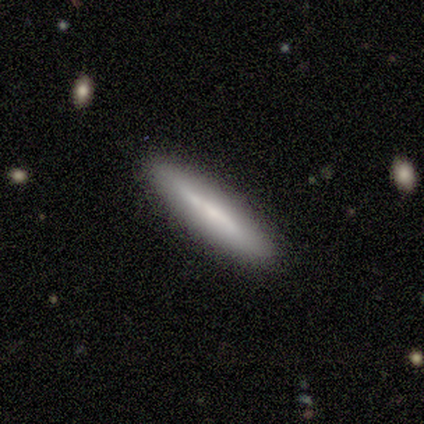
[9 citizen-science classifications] Smooth or featured: smooth — 67% (featured or disk — 33%)
How rounded: cigar-shaped — 100%
Merging: none — 67% (minor disturbance — 33%)